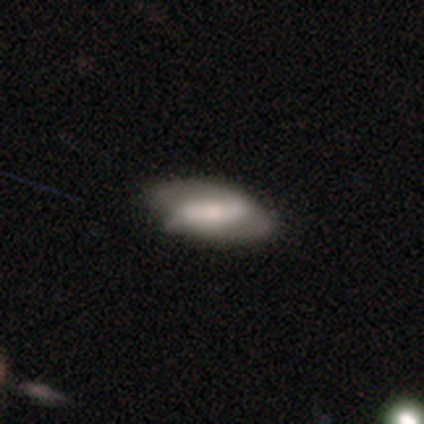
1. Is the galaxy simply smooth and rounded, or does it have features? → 78% featured or disk, 18% smooth, 5% star or artifact.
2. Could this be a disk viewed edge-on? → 90% no, 10% yes.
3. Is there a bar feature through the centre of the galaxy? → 54% strong, 32% no, 14% weak.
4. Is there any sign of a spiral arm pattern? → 54% no, 46% yes.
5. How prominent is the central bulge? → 50% moderate, 36% small, 7% none, 4% dominant, 4% large.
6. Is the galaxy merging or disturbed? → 47% none, 18% minor disturbance, 8% major disturbance, 0% merger.